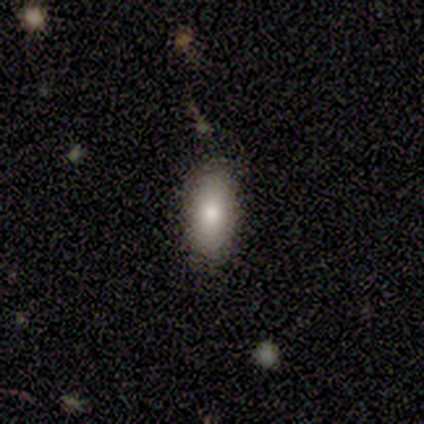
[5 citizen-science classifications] This is clearly a smooth galaxy (100%). How rounded: clearly in between (80%). Merging: clearly none (80%).